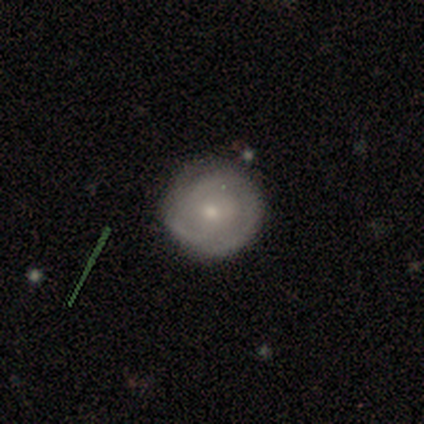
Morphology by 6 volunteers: Smooth or featured? featured or disk (67%)
Edge-on disk? no (100%)
Bar? no (100%)
Spiral arms? yes (75%)
Spiral winding? tight (100%)
Spiral arm count? can't tell (67%)
Bulge size? moderate (75%)
Merging? none (100%)